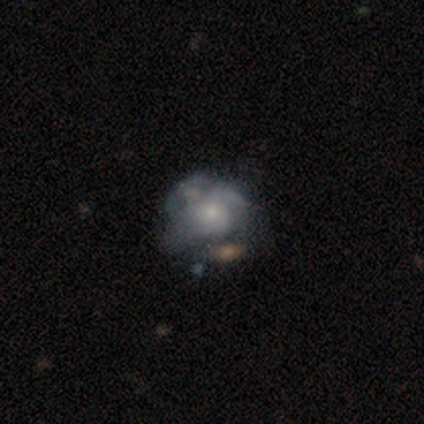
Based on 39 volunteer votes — Smooth or featured? 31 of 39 (79%) said featured or disk. Edge-on disk? 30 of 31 (97%) said no. Bar? 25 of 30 (83%) said no. Spiral arms? 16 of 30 (53%) said yes. Spiral winding? 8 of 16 (50%) said medium. Spiral arm count? 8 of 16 (50%) said can't tell. Bulge size? 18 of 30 (60%) said small. Merging? 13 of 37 (35%) said merger.